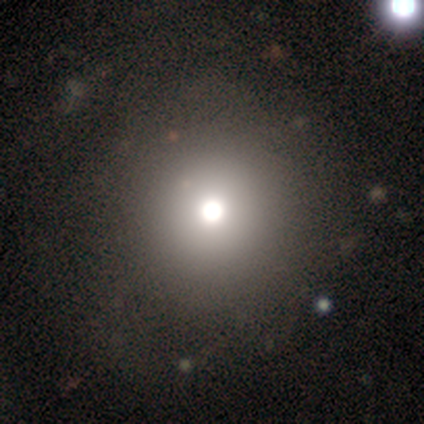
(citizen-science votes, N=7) smooth-or-featured: smooth: 71% | featured or disk: 14% | star or artifact: 14%
  how-rounded: round: 100% | in between: 0% | cigar-shaped: 0%
  merging: none: 83% | major disturbance: 17% | minor disturbance: 0% | merger: 0%